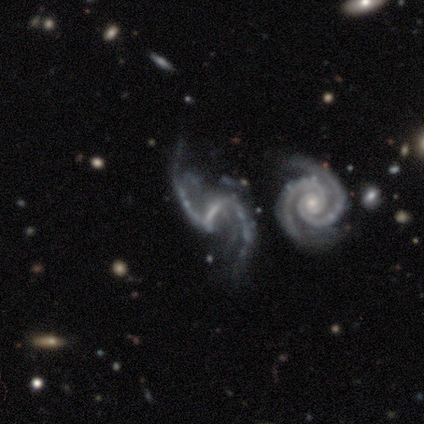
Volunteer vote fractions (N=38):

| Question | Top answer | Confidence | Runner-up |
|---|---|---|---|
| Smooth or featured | featured or disk | 92% | star or artifact (5%) |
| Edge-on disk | no | 91% | yes (9%) |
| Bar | weak | 56% | strong (38%) |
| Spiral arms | yes | 100% | — |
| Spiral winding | loose | 72% | tight (16%) |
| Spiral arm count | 2 | 94% | more than 4 (3%) |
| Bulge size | none | 47% | small (44%) |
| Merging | none | 36% | merger (31%) |